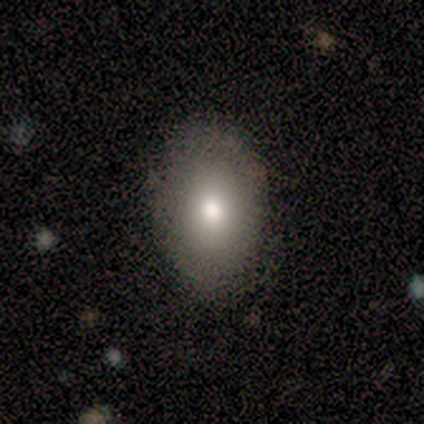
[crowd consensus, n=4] smooth 75%, featured or disk 25%, star or artifact 0%. Down the decision tree: how rounded — round (67%); merging — none (100%).